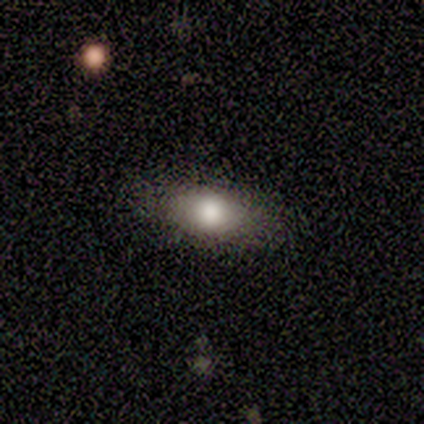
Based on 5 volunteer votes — A smooth galaxy with no disk features (80%) that is cigar-shaped (50%). Merging: none (100%).